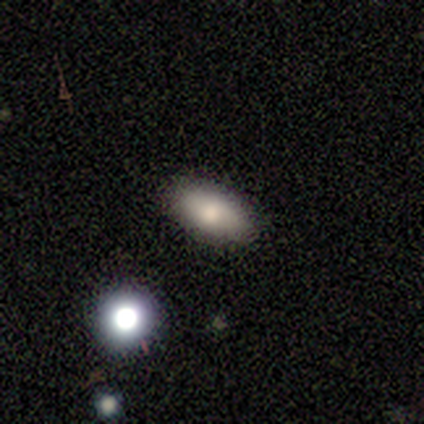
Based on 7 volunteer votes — Smooth or featured?
  - smooth: 71% *
  - featured or disk: 14%
  - star or artifact: 14%
How rounded?
  - in between: 80% *
  - cigar-shaped: 20%
  - round: 0%
Merging?
  - none: 100% *
  - minor disturbance: 0%
  - major disturbance: 0%
  - merger: 0%